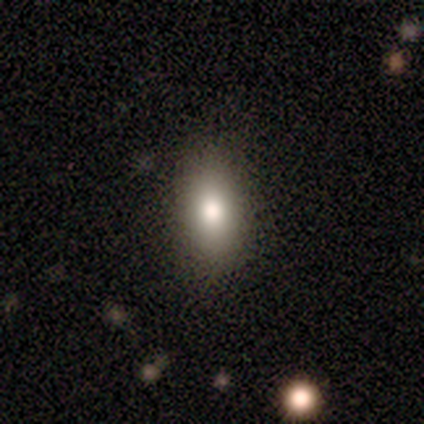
smooth-or-featured: smooth: 60% | star or artifact: 40% | featured or disk: 0%
  how-rounded: in between: 100% | round: 0% | cigar-shaped: 0%
  merging: none: 67% | minor disturbance: 33% | major disturbance: 0% | merger: 0%